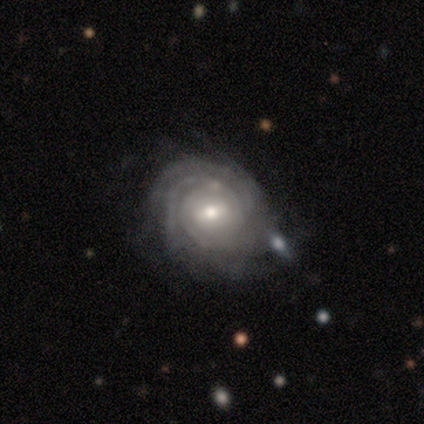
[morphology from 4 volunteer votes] A featured or disk galaxy (100%) with a weak bar (50%), tight (100%) spiral arms (100%) and a moderate central bulge (50%, tied with small).

Vote fractions:
- Smooth or featured? featured or disk: 100% / smooth: 0% / star or artifact: 0%
- Edge-on disk? no: 100% / yes: 0%
- Bar? weak: 50% / strong: 25% / no: 25%
- Spiral arms? yes: 100% / no: 0%
- Spiral winding? tight: 100% / medium: 0% / loose: 0%
- Spiral arm count? can't tell: 50% / 3: 25% / more than 4: 25% / 1: 0% / 2: 0% / 4: 0%
- Bulge size? moderate: 50% (tied) / small: 50% (tied) / dominant: 0% / large: 0% / none: 0%
- Merging? none: 75% / minor disturbance: 25% / major disturbance: 0% / merger: 0%